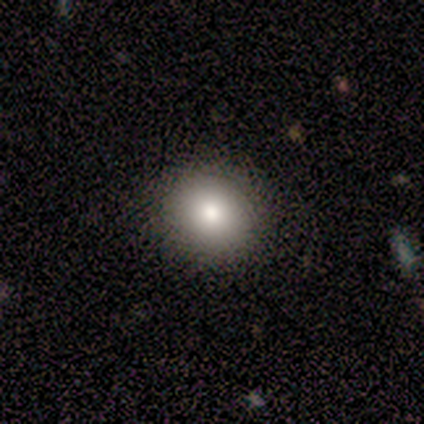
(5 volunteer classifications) Smooth or featured: smooth — 100%
How rounded: round — 100%
Merging: none — 80% (minor disturbance — 20%)